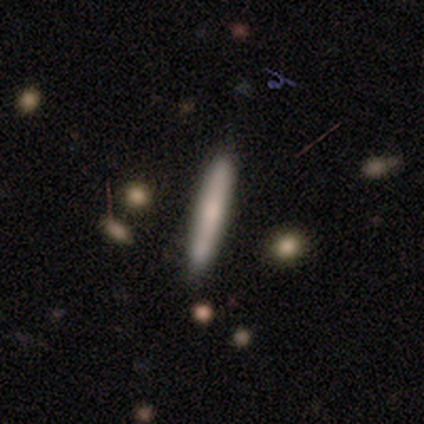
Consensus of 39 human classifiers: Volunteers were most divided on "smooth or featured": smooth: 56%, featured or disk: 36%, star or artifact: 8%. More confident: how rounded — cigar-shaped (100%); merging — none (75%).